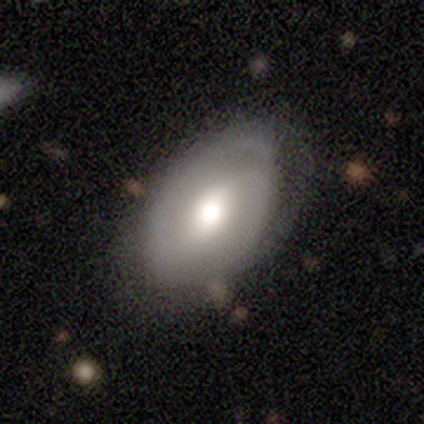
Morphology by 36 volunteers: This is possibly a featured or disk galaxy (53%). It is clearly not viewed edge-on (100%). Bar: possibly strong (47%). Spiral arm pattern: likely yes (74%). Spiral arm count: clearly 2 (93%). Spiral winding: likely medium (79%). Central bulge: likely moderate (74%). Merging: likely none (71%).